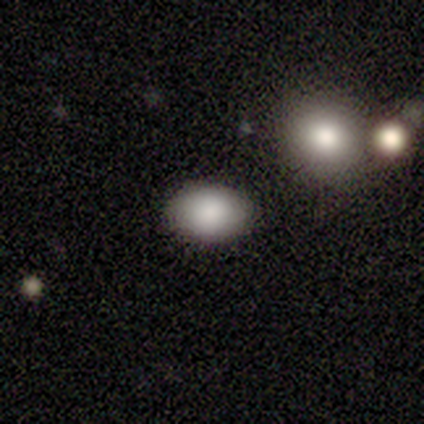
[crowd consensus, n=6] A smooth galaxy with no disk features (100%) that is in between round and cigar-shaped (100%).

Vote fractions:
- Smooth or featured? smooth: 100% / featured or disk: 0% / star or artifact: 0%
- How rounded? in between: 100% / round: 0% / cigar-shaped: 0%
- Merging? none: 100% / minor disturbance: 0% / major disturbance: 0% / merger: 0%